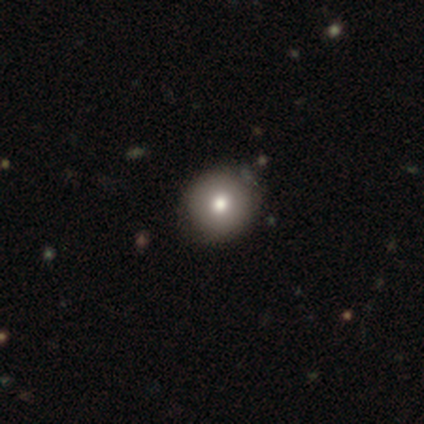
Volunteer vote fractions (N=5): This appears to be a smooth galaxy with no disk features (100%) that is round (100%). Merging: none (80%).